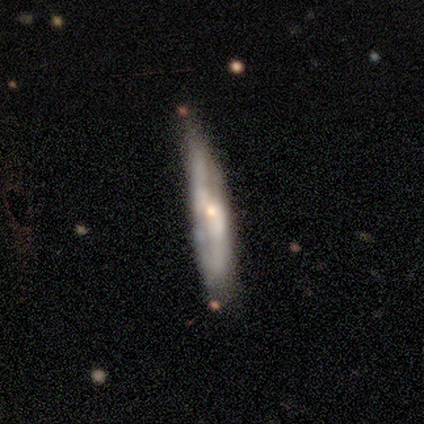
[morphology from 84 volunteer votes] A featured or disk galaxy (70%) viewed edge-on (61%) with a rounded central bulge (47%).

Vote fractions:
- Smooth or featured? featured or disk: 70% / smooth: 24% / star or artifact: 6%
- Edge-on disk? yes: 61% / no: 39%
- Edge-on bulge? rounded: 47% / none: 44% / boxy: 8%
- Merging? none: 65% / minor disturbance: 29% / major disturbance: 4% / merger: 3%